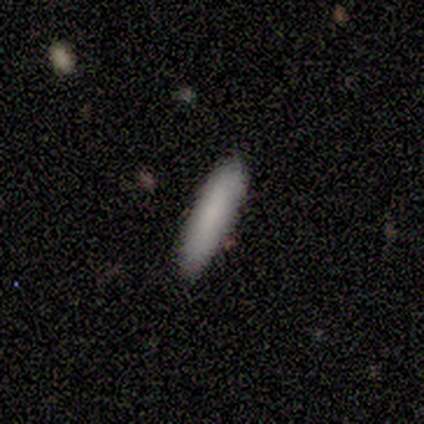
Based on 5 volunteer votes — Smooth or featured? smooth (100%)
How rounded? cigar-shaped (80%)
Merging? none (100%)